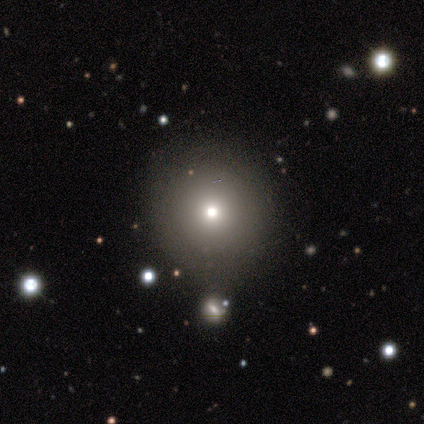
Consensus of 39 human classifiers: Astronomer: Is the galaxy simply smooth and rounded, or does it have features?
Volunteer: smooth — 82%.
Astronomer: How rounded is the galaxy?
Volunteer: round — 94%.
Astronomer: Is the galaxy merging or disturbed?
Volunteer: none — 74%.